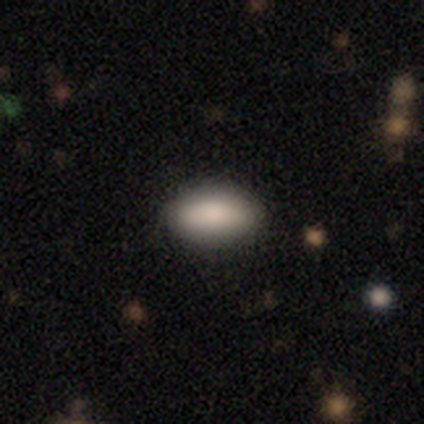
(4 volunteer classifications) Smooth or featured: smooth — 100%
How rounded: in between — 100%
Merging: none — 100%